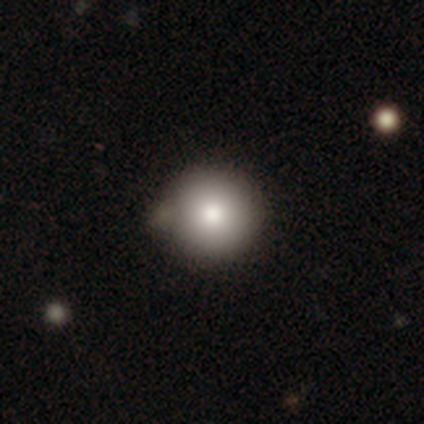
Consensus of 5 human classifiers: A smooth galaxy with no disk features (100%) that is round (80%).

Vote fractions:
- Smooth or featured? smooth: 100% / featured or disk: 0% / star or artifact: 0%
- How rounded? round: 80% / in between: 20% / cigar-shaped: 0%
- Merging? none: 60% / merger: 40% / minor disturbance: 0% / major disturbance: 0%